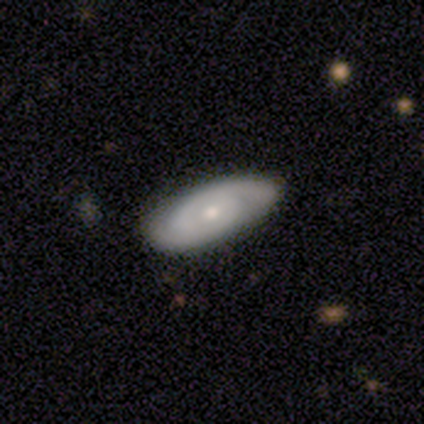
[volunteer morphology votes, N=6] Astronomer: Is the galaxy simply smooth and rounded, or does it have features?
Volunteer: featured or disk — 83%.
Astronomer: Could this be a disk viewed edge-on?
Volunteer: no — 100%.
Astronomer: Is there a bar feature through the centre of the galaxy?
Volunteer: weak — 60% (runner-up: no, 40%).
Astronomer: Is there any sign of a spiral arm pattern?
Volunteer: yes — 80%.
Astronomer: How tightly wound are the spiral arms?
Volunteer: tight — 75%.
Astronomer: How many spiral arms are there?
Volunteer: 2 — 75%.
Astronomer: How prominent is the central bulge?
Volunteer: small — 80%.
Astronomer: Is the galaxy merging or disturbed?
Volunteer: none — 83%.